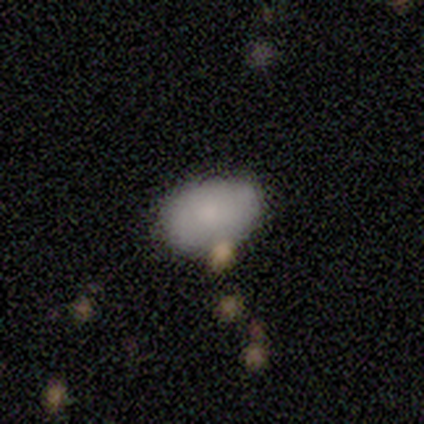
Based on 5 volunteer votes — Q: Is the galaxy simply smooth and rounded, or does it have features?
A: smooth — 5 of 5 (100%).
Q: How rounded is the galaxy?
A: in between — 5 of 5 (100%).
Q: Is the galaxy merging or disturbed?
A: none — 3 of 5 (60%).